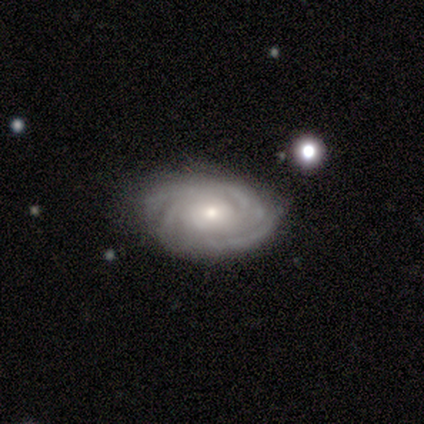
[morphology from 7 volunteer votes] featured or disk 100%, smooth 0%, star or artifact 0%. Down the decision tree: edge-on disk — no (100%); bar — no (71%); spiral arms — yes (100%); spiral arm count — 4 (43%); spiral winding — tight (86%); bulge size — moderate (57%); merging — none (100%).